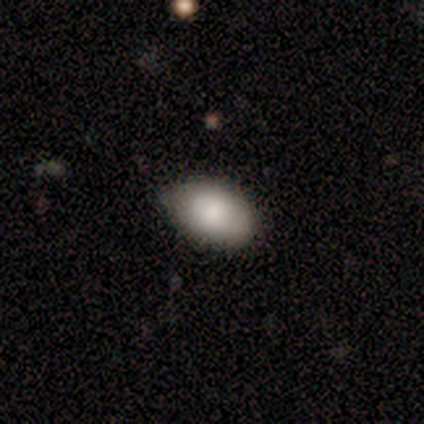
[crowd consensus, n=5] smooth-or-featured: smooth: 100% | featured or disk: 0% | star or artifact: 0%
  how-rounded: in between: 100% | round: 0% | cigar-shaped: 0%
  merging: none: 100% | minor disturbance: 0% | major disturbance: 0% | merger: 0%